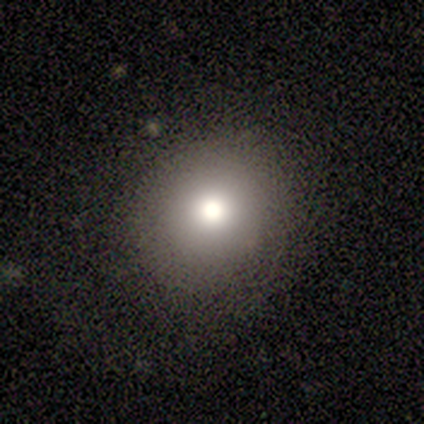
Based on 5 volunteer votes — This appears to be a smooth galaxy with no disk features (60%) that is round (100%). Merging: none (100%).